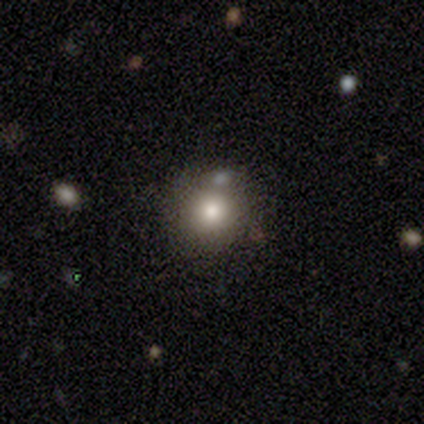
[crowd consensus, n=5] A smooth galaxy with no disk features (100%) that is round (100%). Merging: none (80%).